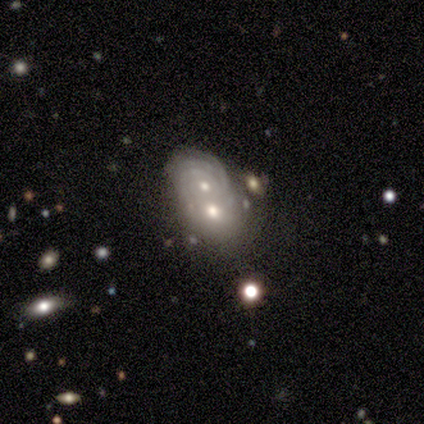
A featured or disk galaxy (80%) with no bar (75%), tight (75%) spiral arms (100%) and a moderate central bulge (50%, tied with small).

Vote fractions:
- Smooth or featured? featured or disk: 80% / smooth: 20% / star or artifact: 0%
- Edge-on disk? no: 100% / yes: 0%
- Bar? no: 75% / weak: 25% / strong: 0%
- Spiral arms? yes: 100% / no: 0%
- Spiral winding? tight: 75% / medium: 25% / loose: 0%
- Spiral arm count? can't tell: 75% / 4: 25% / 1: 0% / 2: 0% / 3: 0% / more than 4: 0%
- Bulge size? moderate: 50% (tied) / small: 50% (tied) / dominant: 0% / large: 0% / none: 0%
- Merging? merger: 80% / minor disturbance: 20% / none: 0% / major disturbance: 0%